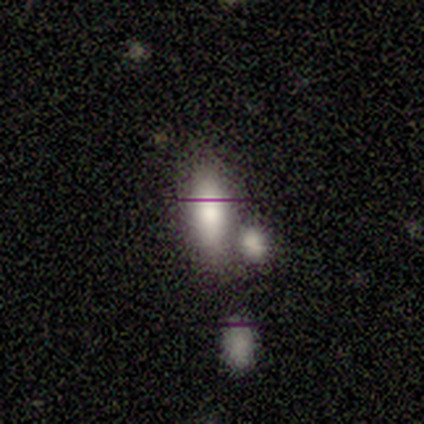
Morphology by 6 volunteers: A smooth galaxy with no disk features (50%) that is in between round and cigar-shaped (100%).

Vote fractions:
- Smooth or featured? smooth: 50% / featured or disk: 33% / star or artifact: 17%
- How rounded? in between: 100% / round: 0% / cigar-shaped: 0%
- Merging? merger: 60% / none: 40% / minor disturbance: 0% / major disturbance: 0%